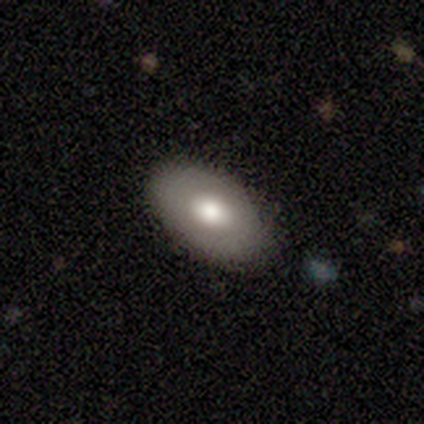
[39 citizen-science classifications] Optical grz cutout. It shows a smooth galaxy with no disk features (64%) that is in between round and cigar-shaped (88%). Merging: none (95%).